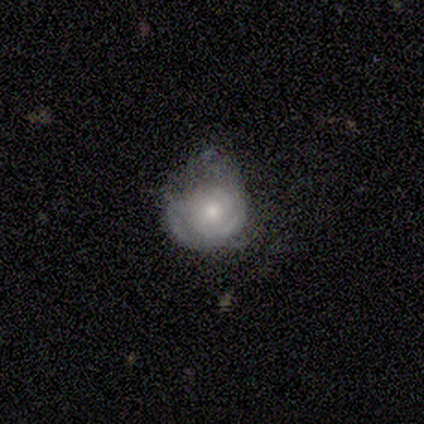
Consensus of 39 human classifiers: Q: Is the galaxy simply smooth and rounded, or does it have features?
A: featured or disk — 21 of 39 (54%).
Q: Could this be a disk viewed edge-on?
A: no — 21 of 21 (100%).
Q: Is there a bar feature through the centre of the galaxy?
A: no — 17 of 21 (81%).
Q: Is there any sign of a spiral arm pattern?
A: yes — 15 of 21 (71%).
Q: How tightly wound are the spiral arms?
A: tight — 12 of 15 (80%).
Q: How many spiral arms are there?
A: can't tell — 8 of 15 (53%).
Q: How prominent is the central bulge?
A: moderate — 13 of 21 (62%).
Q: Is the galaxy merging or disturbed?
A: none — 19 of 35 (54%).